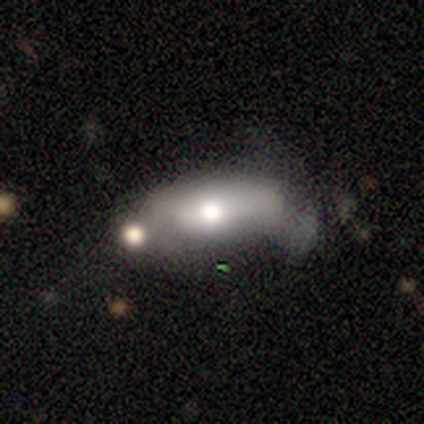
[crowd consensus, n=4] Q: Smooth or featured?
A: smooth (75%); runner-up: featured or disk (25%)
Q: How rounded?
A: in between (100%)
Q: Merging?
A: minor disturbance (50%); tied with: merger (50%)